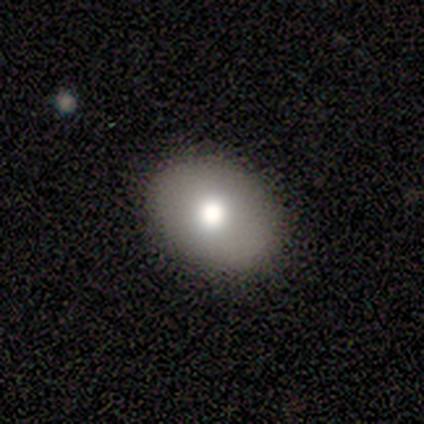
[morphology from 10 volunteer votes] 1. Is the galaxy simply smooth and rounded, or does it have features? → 60% smooth, 40% featured or disk, 0% star or artifact.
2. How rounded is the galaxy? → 83% in between, 17% round, 0% cigar-shaped.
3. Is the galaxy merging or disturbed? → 90% none, 10% merger, 0% minor disturbance, 0% major disturbance.